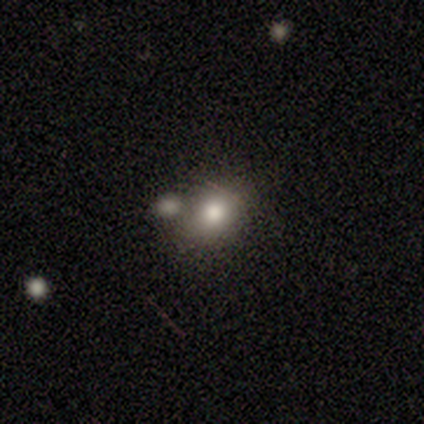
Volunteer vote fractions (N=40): Volunteers were most divided on "how rounded": round: 55%, in between: 41%, cigar-shaped: 3%. More confident: smooth or featured — smooth (72%); merging — none (63%).